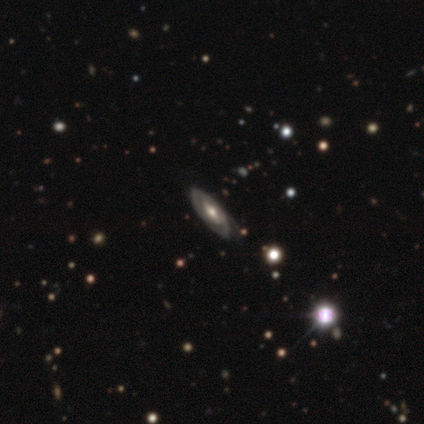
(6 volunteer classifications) Smooth or featured?
  - featured or disk: 67% *
  - smooth: 33%
  - star or artifact: 0%
Edge-on disk?
  - no: 75% *
  - yes: 25%
Bar?
  - weak: 67% *
  - no: 33%
  - strong: 0%
Spiral arms?
  - yes: 67% *
  - no: 33%
Spiral winding?
  - tight: 100% *
  - medium: 0%
  - loose: 0%
Spiral arm count?
  - 2: 50% * (tied)
  - can't tell: 50% * (tied)
  - 1: 0%
  - 3: 0%
  - 4: 0%
  - more than 4: 0%
Bulge size?
  - moderate: 67% *
  - large: 33%
  - dominant: 0%
  - small: 0%
  - none: 0%
Merging?
  - none: 50% * (tied)
  - minor disturbance: 50% * (tied)
  - major disturbance: 0%
  - merger: 0%